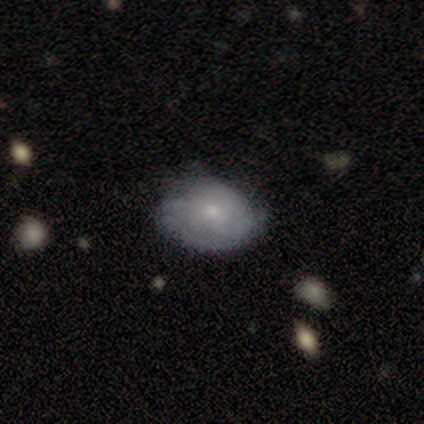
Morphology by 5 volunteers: Smooth or featured: featured or disk — 80% (smooth — 20%)
Edge-on disk: no — 75% (yes — 25%)
Bar: no — 100%
Spiral arms: yes — 100%
Spiral winding: loose — 67% (tight — 33%)
Spiral arm count: can't tell — 67% (3 — 33%)
Bulge size: moderate — 67% (small — 33%)
Merging: none — 80% (minor disturbance — 20%)